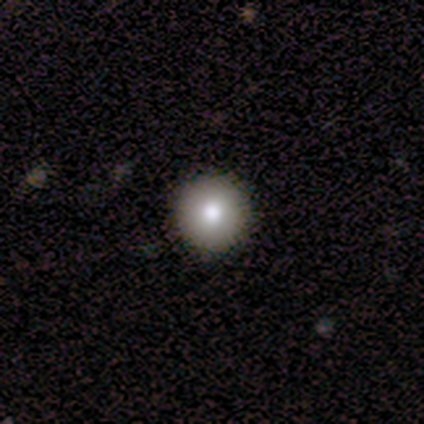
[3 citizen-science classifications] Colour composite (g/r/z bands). It shows a star or artifact, not a galaxy (67%).